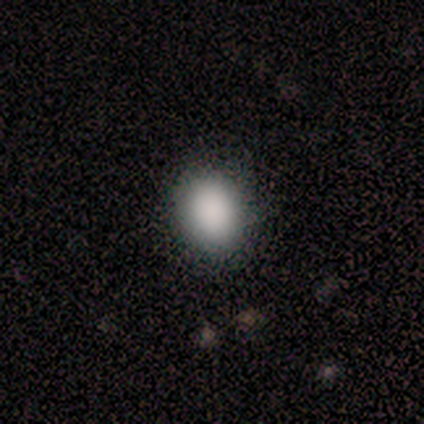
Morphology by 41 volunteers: type=smooth (88%); roundness=in between (53%); merging=none (82%).